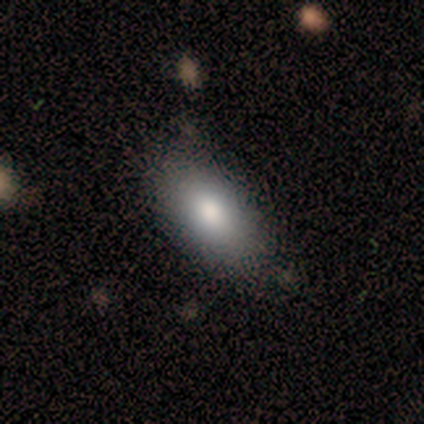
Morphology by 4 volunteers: type=smooth (100%); roundness=in between (75%); merging=none (50%, tied with minor disturbance).